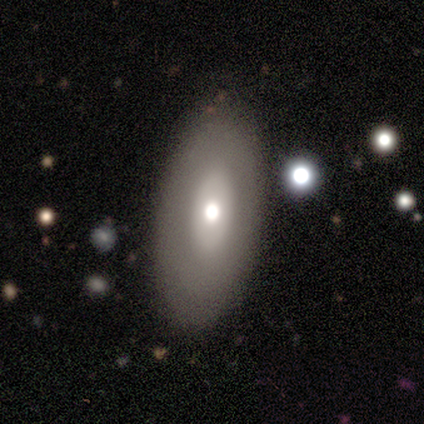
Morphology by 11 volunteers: Smooth or featured?
  - smooth: 64% *
  - featured or disk: 27%
  - star or artifact: 9%
How rounded?
  - in between: 100% *
  - round: 0%
  - cigar-shaped: 0%
Merging?
  - none: 80% *
  - minor disturbance: 20%
  - major disturbance: 0%
  - merger: 0%